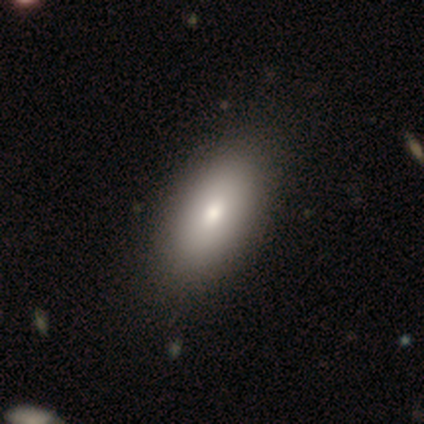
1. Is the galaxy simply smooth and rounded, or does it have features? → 80% smooth, 20% star or artifact, 0% featured or disk.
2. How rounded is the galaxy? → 100% in between, 0% round, 0% cigar-shaped.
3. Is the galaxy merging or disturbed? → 75% none, 25% minor disturbance, 0% major disturbance, 0% merger.